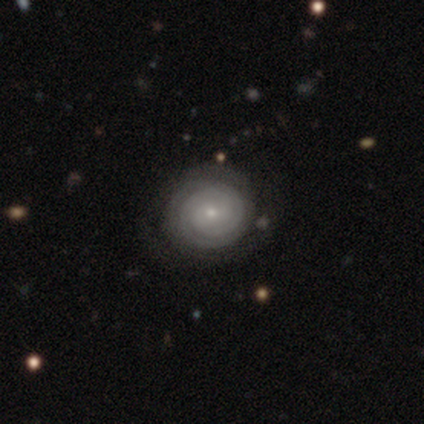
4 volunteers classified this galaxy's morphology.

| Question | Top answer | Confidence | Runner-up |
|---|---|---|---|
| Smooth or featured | featured or disk | 100% | — |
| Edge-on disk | no | 100% | — |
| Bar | no | 75% | weak (25%) |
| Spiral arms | yes | 100% | — |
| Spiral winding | tight | 100% | — |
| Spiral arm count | can't tell | 75% | 2 (25%) |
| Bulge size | small | 75% | moderate (25%) |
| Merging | none | 100% | — |